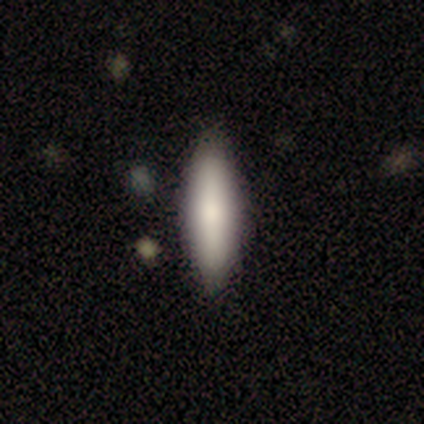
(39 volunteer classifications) smooth_or_featured: smooth (p=0.82) [alt: featured or disk p=0.10]
how_rounded: cigar-shaped (p=0.50) [alt: in between p=0.44]
merging: none (p=0.83) [alt: minor disturbance p=0.11]